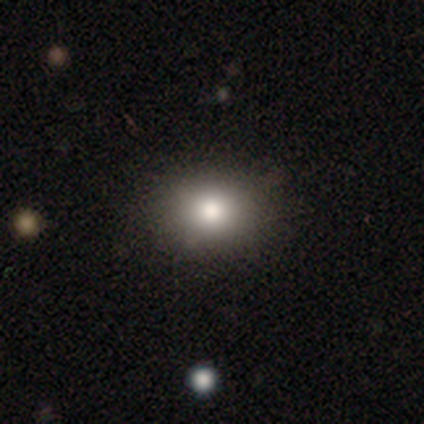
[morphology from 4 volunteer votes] A star or artifact, not a galaxy (50%).

Vote fractions:
- Smooth or featured? star or artifact: 50% / smooth: 25% / featured or disk: 25%